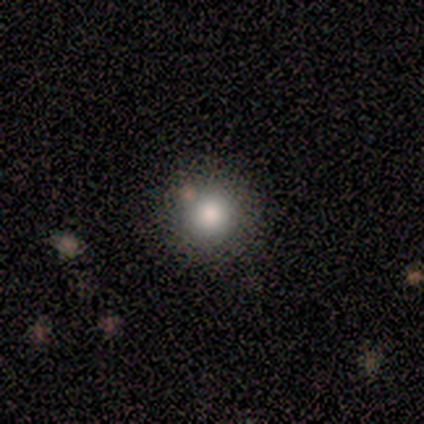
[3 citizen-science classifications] Consensus on every question: smooth or featured — smooth (100%); how rounded — round (100%); merging — none (100%).